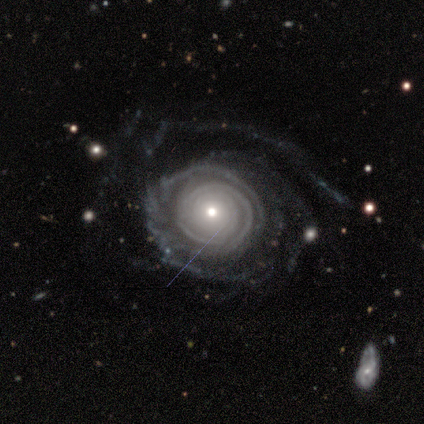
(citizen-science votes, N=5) A featured or disk galaxy (100%) with no bar (100%), tight (80%) spiral arms (100%) and a small central bulge (60%).

Vote fractions:
- Smooth or featured? featured or disk: 100% / smooth: 0% / star or artifact: 0%
- Edge-on disk? no: 100% / yes: 0%
- Bar? no: 100% / strong: 0% / weak: 0%
- Spiral arms? yes: 100% / no: 0%
- Spiral winding? tight: 80% / loose: 20% / medium: 0%
- Spiral arm count? can't tell: 60% / 4: 20% / more than 4: 20% / 1: 0% / 2: 0% / 3: 0%
- Bulge size? small: 60% / large: 20% / moderate: 20% / dominant: 0% / none: 0%
- Merging? none: 40% / minor disturbance: 20% / major disturbance: 20% / merger: 20%